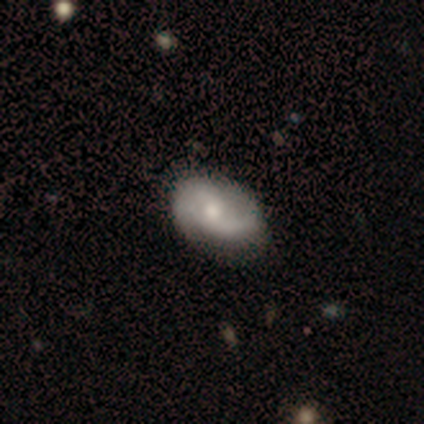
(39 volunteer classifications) Smooth or featured? 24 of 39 (62%) said featured or disk. Edge-on disk? 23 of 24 (96%) said no. Bar? 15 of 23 (65%) said no. Spiral arms? 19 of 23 (83%) said yes. Spiral winding? 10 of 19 (53%) said loose. Spiral arm count? 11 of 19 (58%) said 2. Bulge size? 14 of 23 (61%) said moderate. Merging? 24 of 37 (65%) said none.